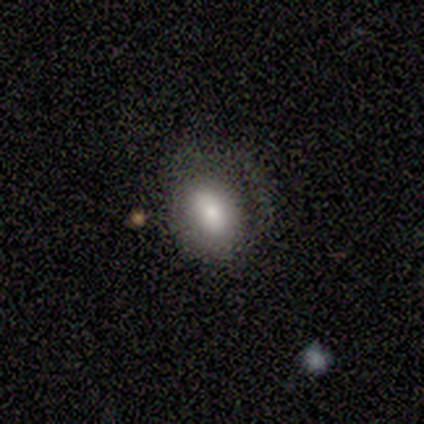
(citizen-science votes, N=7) A smooth galaxy with no disk features (57%) that is in between round and cigar-shaped (75%).

Vote fractions:
- Smooth or featured? smooth: 57% / featured or disk: 43% / star or artifact: 0%
- How rounded? in between: 75% / round: 25% / cigar-shaped: 0%
- Merging? minor disturbance: 71% / major disturbance: 29% / none: 0% / merger: 0%